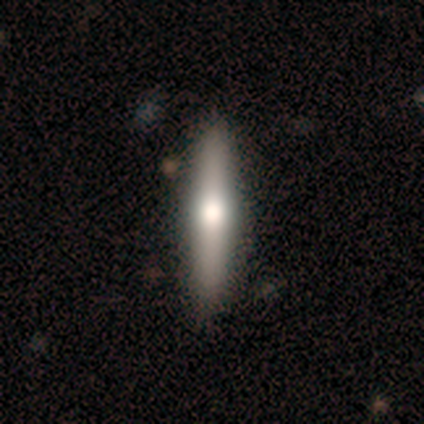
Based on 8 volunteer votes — Smooth or featured? featured or disk (75%)
Edge-on disk? yes (83%)
Edge-on bulge? rounded (80%)
Merging? none (71%)